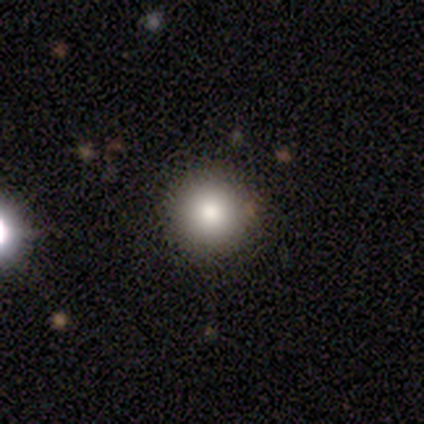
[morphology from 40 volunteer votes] Smooth or featured: smooth — 80% (star or artifact — 12%)
How rounded: round — 100%
Merging: none — 91% (merger — 6%)